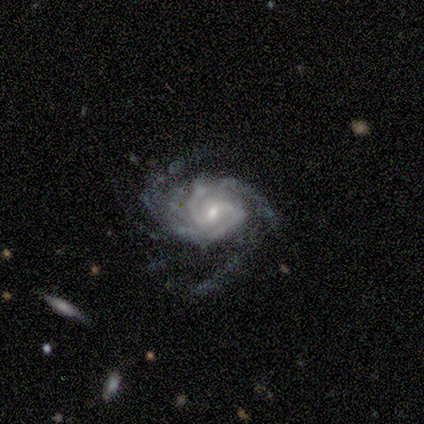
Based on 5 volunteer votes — featured or disk 100%, smooth 0%, star or artifact 0%. Down the decision tree: edge-on disk — no (100%); bar — weak (60%); spiral arms — yes (100%); spiral arm count — 3 (40%); spiral winding — tight (60%); bulge size — small (60%); merging — none (60%).